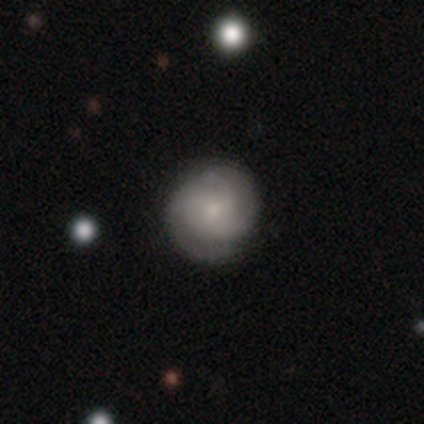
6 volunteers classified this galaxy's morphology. Volunteers were most divided on "spiral winding" (2-way tie): tight: 50%, medium: 50%, loose: 0%; "bulge size" (2-way tie): moderate: 50%, small: 50%, dominant: 0%, large: 0%, none: 0%. More confident: edge-on disk — no (100%); bar — no (100%); spiral arms — yes (100%); merging — none (100%); smooth or featured — featured or disk (67%); spiral arm count — 3 (50%).